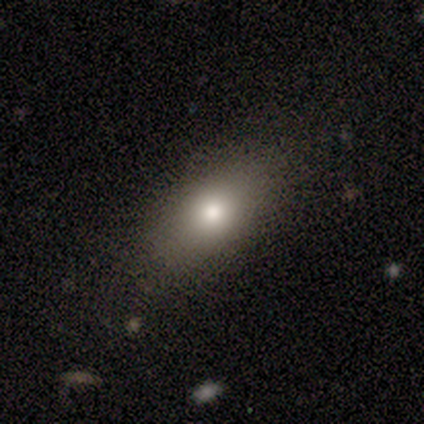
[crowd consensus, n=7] Overall: smooth (86%). How rounded: in between (67%; cigar-shaped 33%). Merging: none (100%).